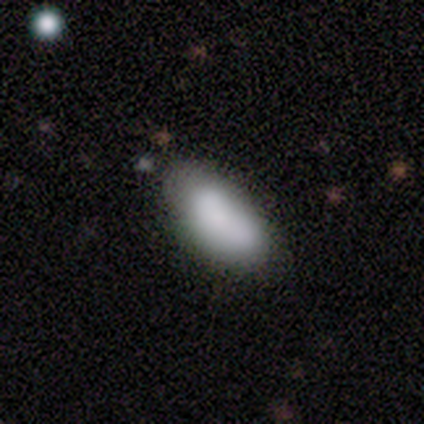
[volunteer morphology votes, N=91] smooth 80%, featured or disk 15%, star or artifact 4%. Down the decision tree: how rounded — in between (90%); merging — none (56%).